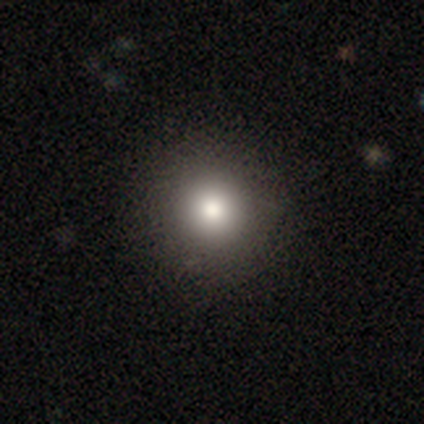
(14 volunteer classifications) smooth-or-featured: smooth: 86% | featured or disk: 14% | star or artifact: 0%
  how-rounded: round: 100% | in between: 0% | cigar-shaped: 0%
  merging: none: 100% | minor disturbance: 0% | major disturbance: 0% | merger: 0%